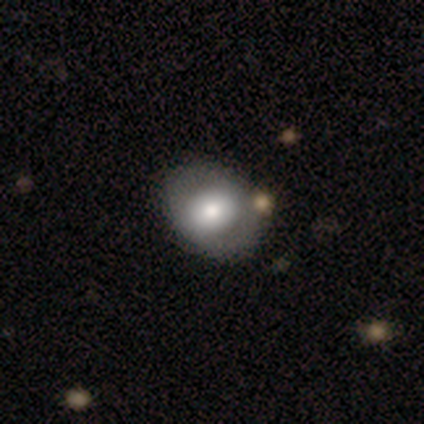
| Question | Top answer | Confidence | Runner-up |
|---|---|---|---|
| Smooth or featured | smooth | 47% | featured or disk (45%) |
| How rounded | round | 50% | tied: in between (50%) |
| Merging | none | 49% | merger (11%) |